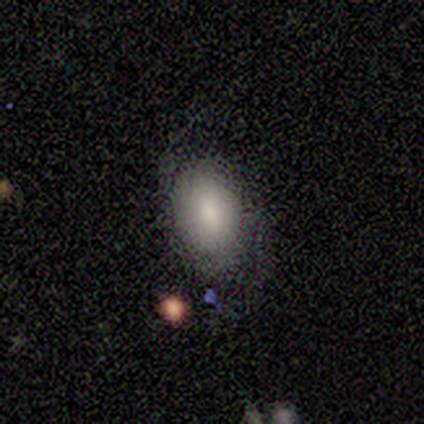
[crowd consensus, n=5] Smooth or featured?
  - smooth: 100% *
  - featured or disk: 0%
  - star or artifact: 0%
How rounded?
  - in between: 60% *
  - round: 40%
  - cigar-shaped: 0%
Merging?
  - none: 100% *
  - minor disturbance: 0%
  - major disturbance: 0%
  - merger: 0%